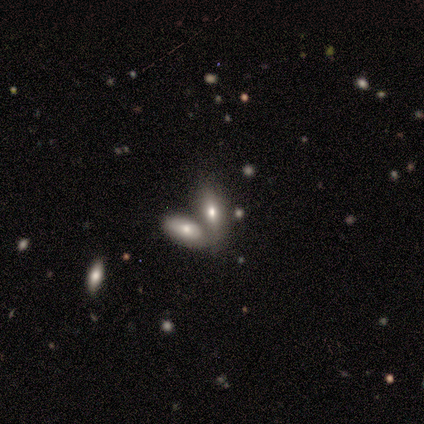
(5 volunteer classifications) This is clearly a smooth galaxy (80%). How rounded: clearly in between (100%). Merging: clearly merger (100%).